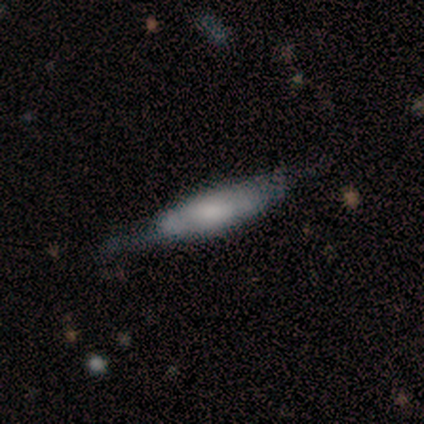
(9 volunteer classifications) smooth_or_featured: featured or disk (p=0.56) [alt: smooth p=0.44]
disk_edge_on: yes (p=0.80) [alt: no p=0.20]
edge_on_bulge: none (p=0.50) [alt: boxy p=0.25]
merging: none (p=0.56) [alt: merger p=0.22]